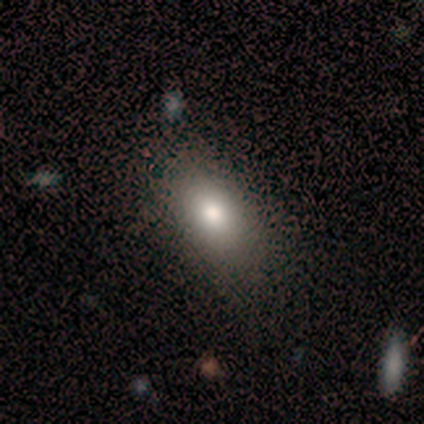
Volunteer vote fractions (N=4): Smooth or featured: smooth — 100%
How rounded: in between — 75% (round — 25%)
Merging: none — 75% (minor disturbance — 25%)